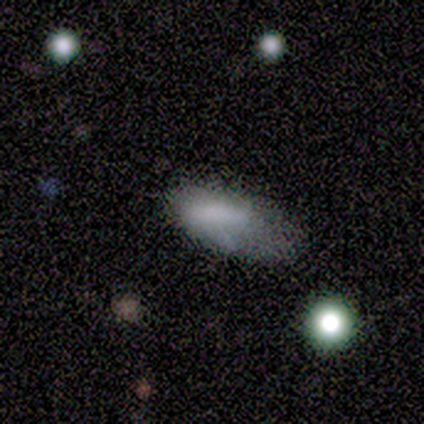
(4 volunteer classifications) This appears to be a smooth galaxy with no disk features (100%) that is in between round and cigar-shaped (100%). Merging: none (50%).